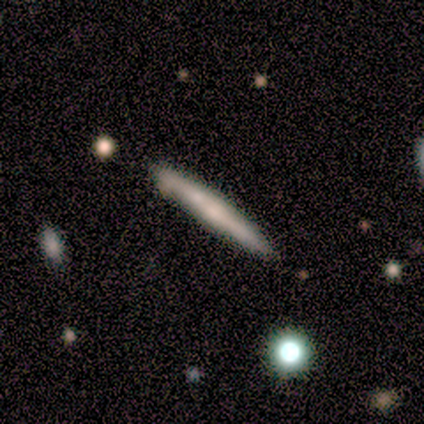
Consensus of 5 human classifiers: smooth-or-featured: featured or disk: 80% | smooth: 20% | star or artifact: 0%
  disk-edge-on: yes: 100% | no: 0%
    edge-on-bulge: none: 50% (tied) | rounded: 50% (tied) | boxy: 0%
  merging: none: 80% | minor disturbance: 20% | major disturbance: 0% | merger: 0%